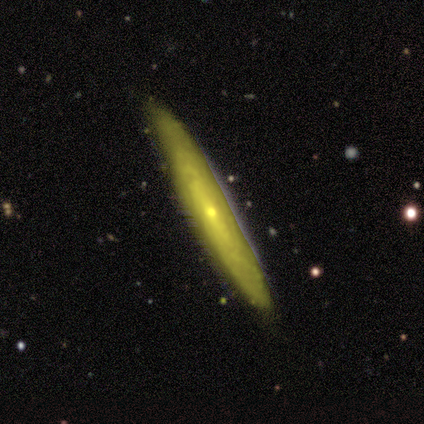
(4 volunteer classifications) Morphology: type=featured or disk (75%); edge-on=no (67%); bar=no (100%); spiral arms=no (100%); bulge=moderate (50%, tied with small); merging=none (75%).